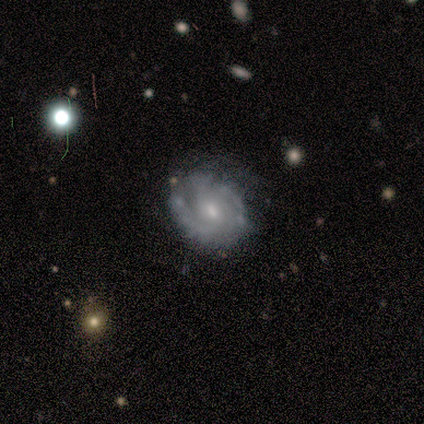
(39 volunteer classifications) This is likely a featured or disk galaxy (77%). It is clearly not viewed edge-on (93%). Bar: likely no (68%). Spiral arm pattern: clearly yes (89%). Spiral arm count: marginally 2 (36%, tied with can't tell). Spiral winding: likely medium (60%). Central bulge: possibly small (57%). Merging: likely none (70%).